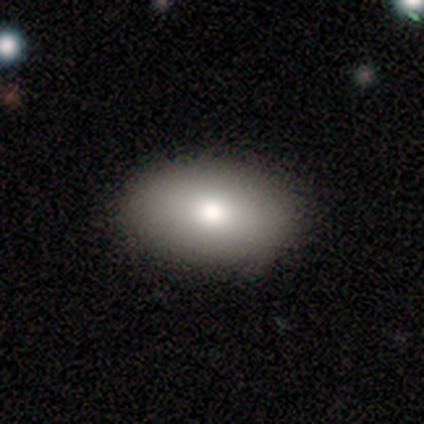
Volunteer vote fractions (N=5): This is clearly a smooth galaxy (100%). How rounded: clearly in between (100%). Merging: clearly none (100%).